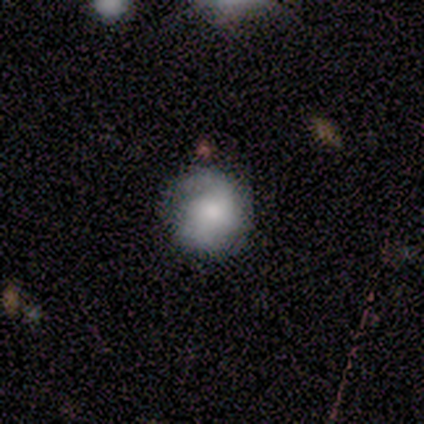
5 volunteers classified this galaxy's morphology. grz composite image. It shows a smooth galaxy with no disk features (60%) that is round (100%). Merging: none (40%, tied with minor disturbance).